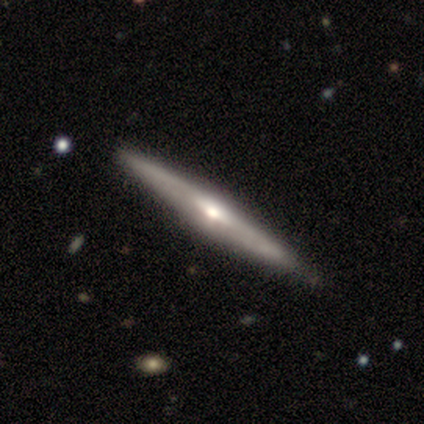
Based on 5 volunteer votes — smooth-or-featured: featured or disk: 100% | smooth: 0% | star or artifact: 0%
  disk-edge-on: yes: 80% | no: 20%
    edge-on-bulge: rounded: 100% | boxy: 0% | none: 0%
  merging: none: 80% | major disturbance: 20% | minor disturbance: 0% | merger: 0%